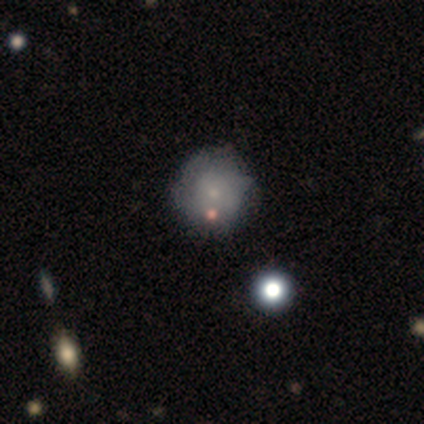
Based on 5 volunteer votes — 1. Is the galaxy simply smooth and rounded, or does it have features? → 60% smooth, 40% featured or disk, 0% star or artifact.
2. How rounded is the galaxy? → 100% round, 0% in between, 0% cigar-shaped.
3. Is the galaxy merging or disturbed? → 60% minor disturbance, 40% none, 0% major disturbance, 0% merger.